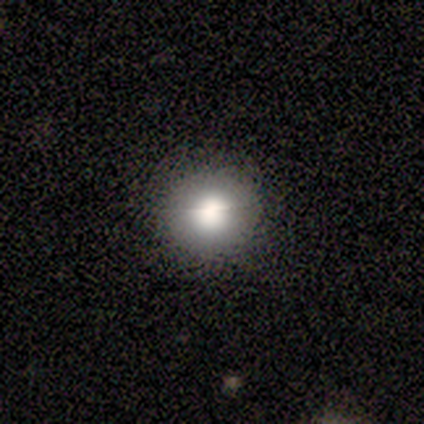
Volunteers were most divided on "merging": none: 80%, minor disturbance: 20%, major disturbance: 0%, merger: 0%. More confident: smooth or featured — smooth (100%); how rounded — round (100%).